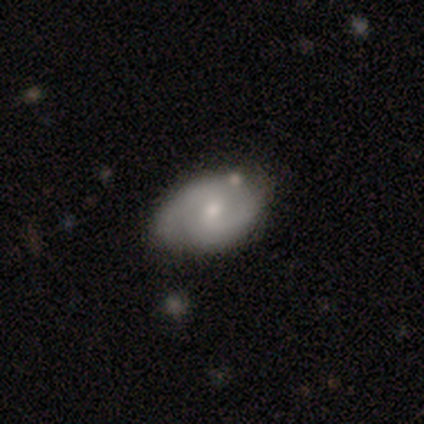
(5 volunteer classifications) Volunteers were most divided on "bar" (3-way tie): strong: 33%, weak: 33%, no: 33%; "spiral arm count" (3-way tie): 2: 33%, 3: 33%, can't tell: 33%, 1: 0%, 4: 0%, more than 4: 0%. More confident: edge-on disk — no (100%); spiral arms — yes (100%); spiral winding — medium (100%); merging — none (75%); bulge size — small (67%); smooth or featured — featured or disk (60%).